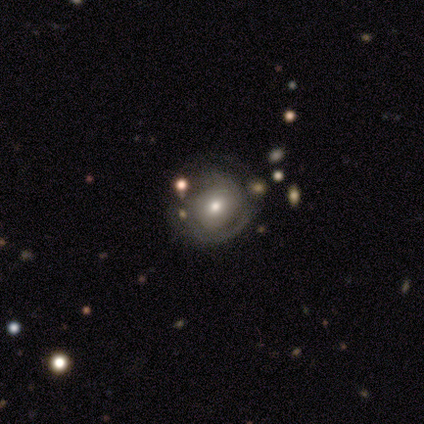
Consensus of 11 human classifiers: Overall: featured or disk (64%; smooth 27%). Edge-on disk: no (100%). Bar: no (100%). Spiral arms: yes (57%; no 43%). Spiral arm count: 2 (50%, tied with can't tell). Spiral winding: tight (75%). Bulge size: moderate (100%). Merging: none (50%; minor disturbance 20%).